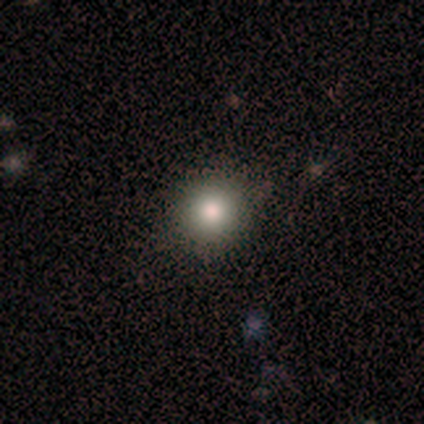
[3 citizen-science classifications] Smooth or featured: smooth — 67% (star or artifact — 33%)
How rounded: round — 100%
Merging: none — 100%